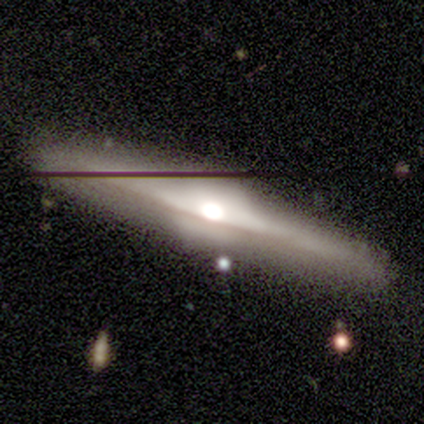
Volunteers were most divided on "smooth or featured": featured or disk: 79%, smooth: 18%, star or artifact: 3%. More confident: edge-on disk — yes (97%); edge-on bulge — rounded (97%); merging — none (76%).